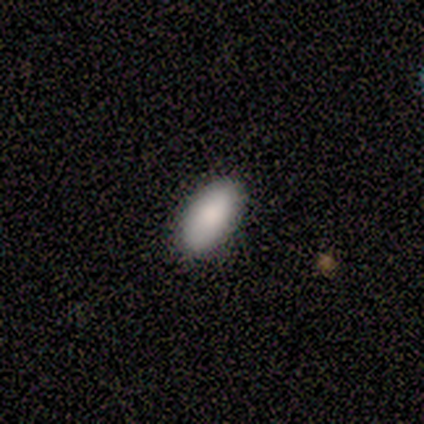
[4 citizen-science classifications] A smooth galaxy with no disk features (100%) that is in between round and cigar-shaped (100%).

Vote fractions:
- Smooth or featured? smooth: 100% / featured or disk: 0% / star or artifact: 0%
- How rounded? in between: 100% / round: 0% / cigar-shaped: 0%
- Merging? none: 75% / major disturbance: 25% / minor disturbance: 0% / merger: 0%